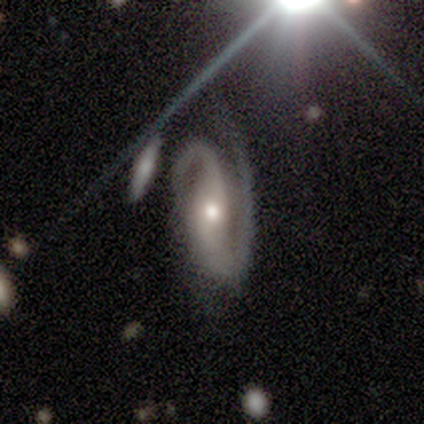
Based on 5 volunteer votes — Smooth or featured? featured or disk (100%)
Edge-on disk? no (100%)
Bar? strong (40%, tied with weak)
Spiral arms? yes (100%)
Spiral winding? medium (60%)
Spiral arm count? 2 (100%)
Bulge size? moderate (60%)
Merging? none (60%)